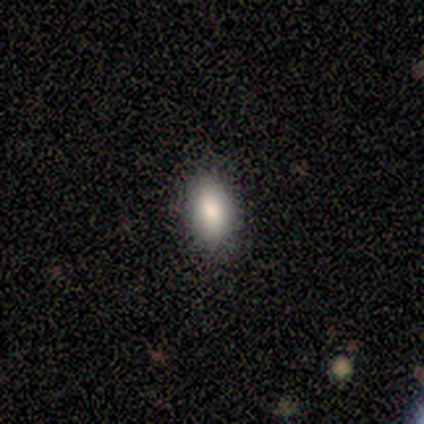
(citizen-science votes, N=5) Volunteers were most divided on "smooth or featured": smooth: 80%, star or artifact: 20%, featured or disk: 0%. More confident: how rounded — in between (100%); merging — none (100%).